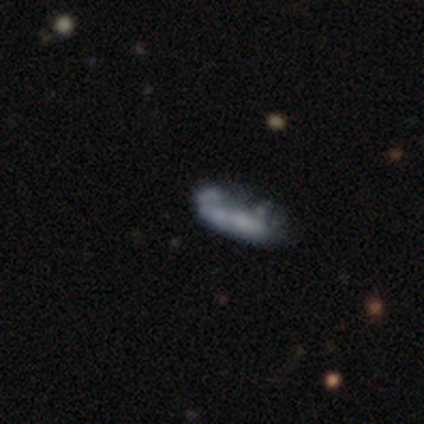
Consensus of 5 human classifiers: Q: Smooth or featured?
A: smooth (80%); runner-up: featured or disk (20%)
Q: How rounded?
A: in between (50%); tied with: cigar-shaped (50%)
Q: Merging?
A: major disturbance (60%); runner-up: minor disturbance (20%)